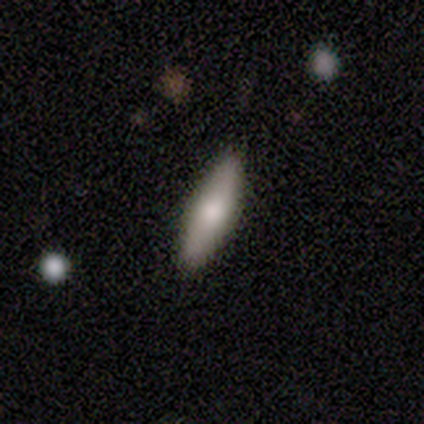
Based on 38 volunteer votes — A smooth galaxy with no disk features (68%) that is cigar-shaped (62%). Merging: none (97%).